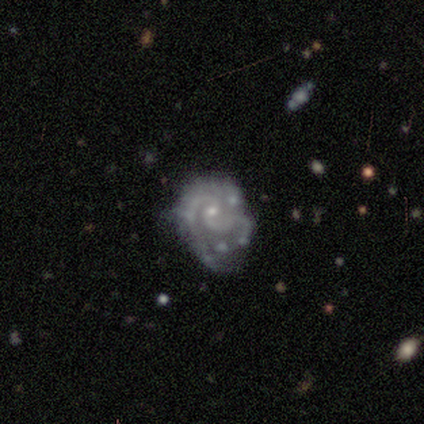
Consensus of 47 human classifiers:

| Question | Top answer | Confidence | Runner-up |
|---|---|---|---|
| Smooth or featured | featured or disk | 87% | smooth (11%) |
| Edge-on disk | no | 95% | yes (5%) |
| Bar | no | 72% | weak (28%) |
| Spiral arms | yes | 97% | no (3%) |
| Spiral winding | medium | 45% | tight (39%) |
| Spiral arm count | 2 | 82% | can't tell (11%) |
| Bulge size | small | 77% | moderate (21%) |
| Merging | none | 30% | tied: minor disturbance (30%) |